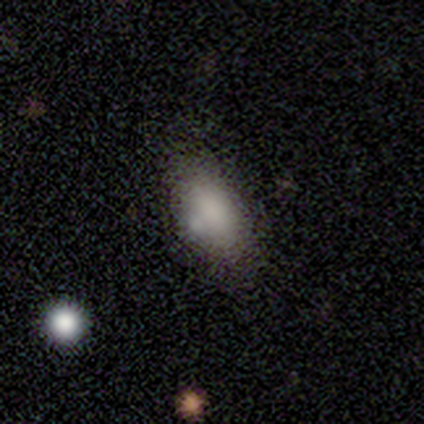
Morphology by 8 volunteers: Volunteers were most divided on "merging": none: 71%, minor disturbance: 14%, merger: 14%, major disturbance: 0%. More confident: smooth or featured — smooth (88%); how rounded — in between (86%).